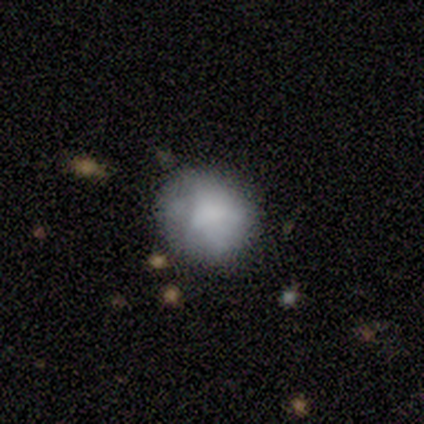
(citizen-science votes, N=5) Smooth or featured: smooth — 60% (featured or disk — 40%)
How rounded: round — 67% (in between — 33%)
Merging: none — 100%